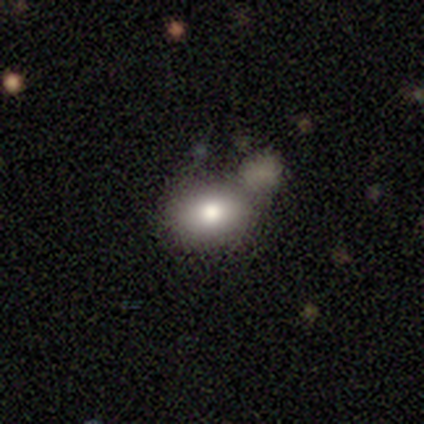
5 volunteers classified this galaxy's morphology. Smooth or featured: smooth — 100%
How rounded: in between — 100%
Merging: none — 60% (minor disturbance — 20%)